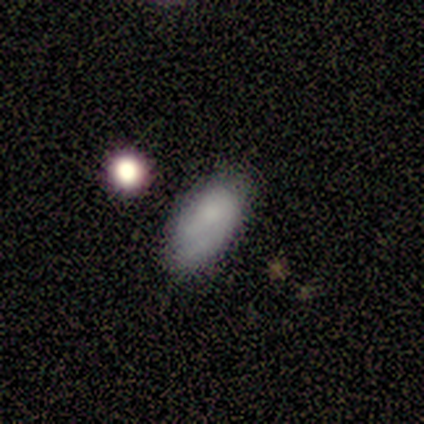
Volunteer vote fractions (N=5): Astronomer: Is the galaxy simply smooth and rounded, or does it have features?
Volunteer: smooth — 60%.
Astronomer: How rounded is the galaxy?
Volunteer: in between — 100%.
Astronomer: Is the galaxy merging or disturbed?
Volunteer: none — 50%, tied with minor disturbance at 50%.